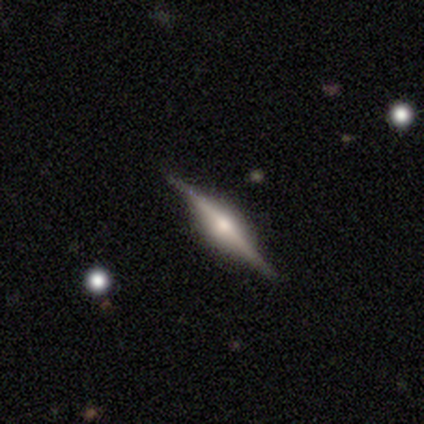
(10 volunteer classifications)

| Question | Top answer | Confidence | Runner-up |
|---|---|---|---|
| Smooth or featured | featured or disk | 100% | — |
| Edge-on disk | yes | 100% | — |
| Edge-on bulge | rounded | 90% | boxy (10%) |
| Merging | none | 80% | minor disturbance (20%) |